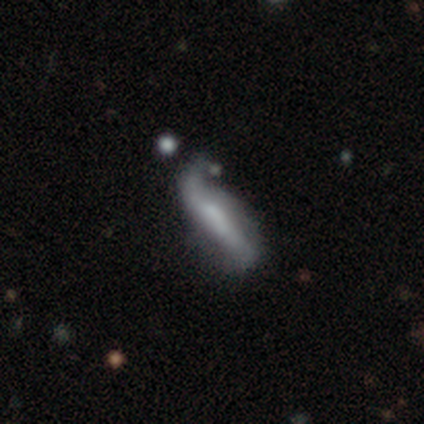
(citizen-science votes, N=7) Smooth or featured: smooth — 57% (featured or disk — 29%)
How rounded: cigar-shaped — 75% (in between — 25%)
Merging: major disturbance — 50% (minor disturbance — 33%)